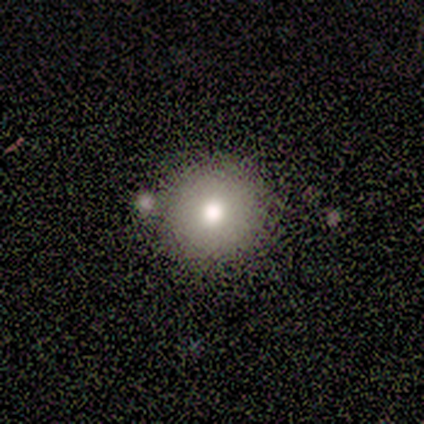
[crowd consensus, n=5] Overall: smooth (100%). How rounded: round (100%). Merging: none (80%).